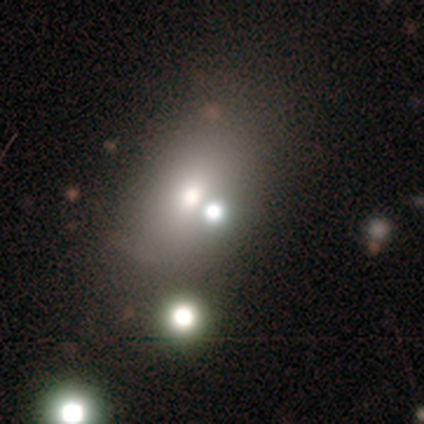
Smooth or featured? smooth (50%, tied with star or artifact)
How rounded? in between (100%)
Merging? major disturbance (50%, tied with merger)